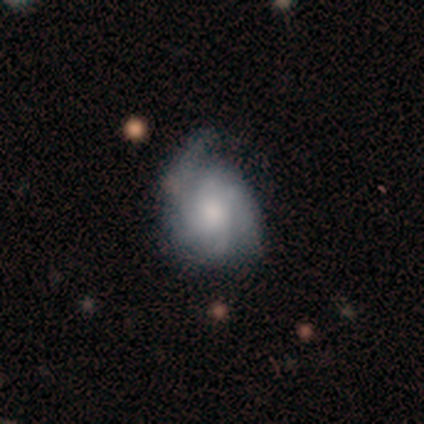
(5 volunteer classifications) A featured or disk galaxy (60%) with no bar (100%), 2 (33%, tied with 4 and can't tell) tight (67%) spiral arms (100%) and a large central bulge (33%, tied with moderate and small). Merging: minor disturbance (40%, tied with major disturbance).